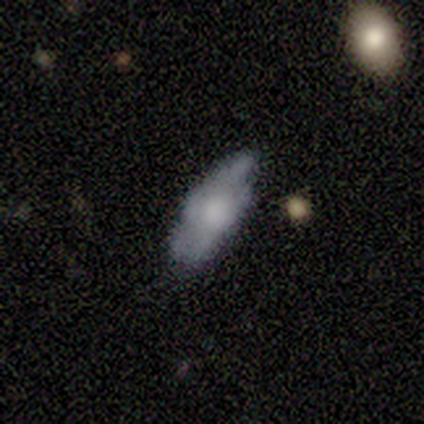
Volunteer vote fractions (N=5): smooth-or-featured: smooth: 80% | featured or disk: 20% | star or artifact: 0%
  how-rounded: in between: 100% | round: 0% | cigar-shaped: 0%
  merging: none: 60% | minor disturbance: 40% | major disturbance: 0% | merger: 0%